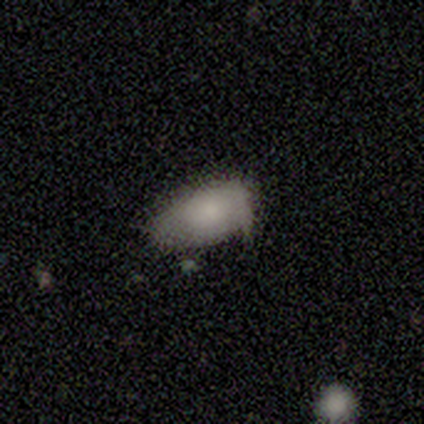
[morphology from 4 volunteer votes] This appears to be a smooth galaxy with no disk features (100%) that is in between round and cigar-shaped (100%). Merging: none (75%).